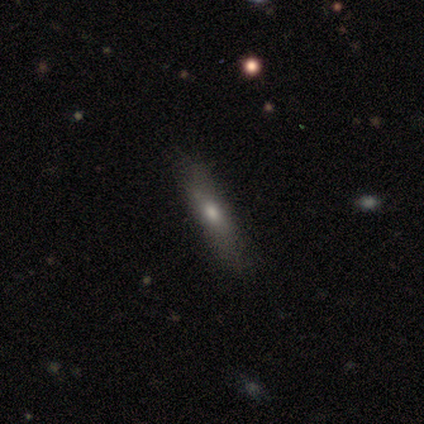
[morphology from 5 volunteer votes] smooth_or_featured: smooth (p=0.80) [alt: featured or disk p=0.20]
how_rounded: cigar-shaped (p=0.75) [alt: round p=0.25]
merging: minor disturbance (p=0.60) [alt: none p=0.40]